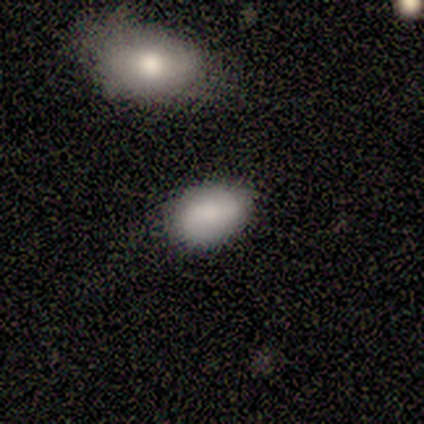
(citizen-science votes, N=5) Smooth or featured? 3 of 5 (60%) said smooth. How rounded? 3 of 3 (100%) said in between. Merging? 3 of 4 (75%) said none.